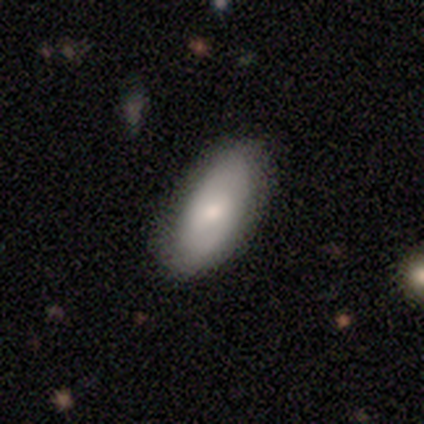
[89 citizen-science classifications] Smooth or featured?
  - smooth: 74% *
  - featured or disk: 25%
  - star or artifact: 1%
How rounded?
  - in between: 91% *
  - cigar-shaped: 8%
  - round: 2%
Merging?
  - none: 85% *
  - minor disturbance: 14%
  - major disturbance: 1%
  - merger: 0%